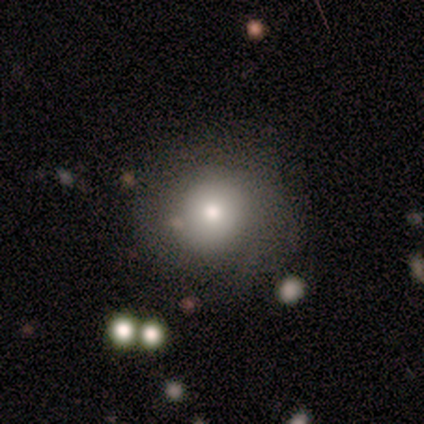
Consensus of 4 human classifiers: Smooth or featured?
  - smooth: 75% *
  - featured or disk: 25%
  - star or artifact: 0%
How rounded?
  - round: 100% *
  - in between: 0%
  - cigar-shaped: 0%
Merging?
  - none: 100% *
  - minor disturbance: 0%
  - major disturbance: 0%
  - merger: 0%